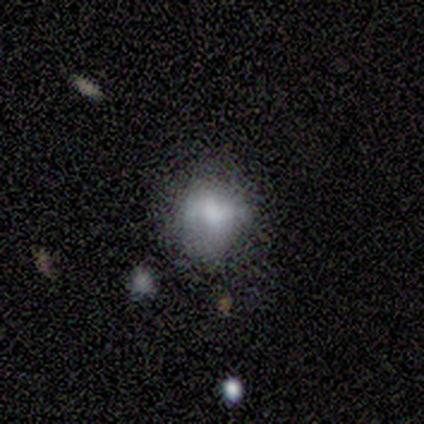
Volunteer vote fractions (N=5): A smooth galaxy with no disk features (60%) that is round (100%). Merging: none (75%).